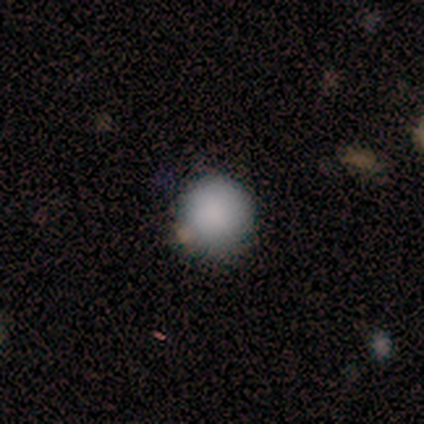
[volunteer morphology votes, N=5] This is clearly a smooth galaxy (100%). How rounded: clearly round (100%). Merging: clearly none (100%).